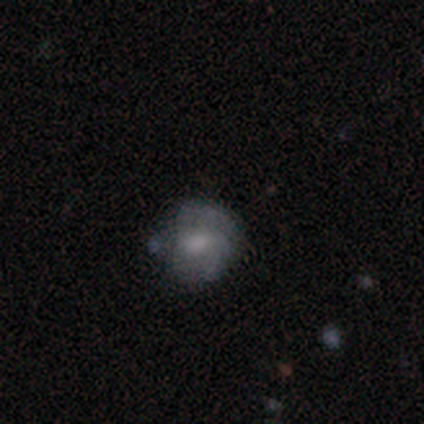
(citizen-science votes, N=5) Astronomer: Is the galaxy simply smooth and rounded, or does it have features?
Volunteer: featured or disk — 80%.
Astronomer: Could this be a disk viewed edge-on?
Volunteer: no — 100%.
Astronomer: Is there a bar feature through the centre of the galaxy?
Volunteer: no — 75%.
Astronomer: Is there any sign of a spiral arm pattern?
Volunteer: yes — 50%, tied with no at 50%.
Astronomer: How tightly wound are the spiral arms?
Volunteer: tight — 50%, tied with medium at 50%.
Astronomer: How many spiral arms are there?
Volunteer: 2 — 50%, tied with can't tell at 50%.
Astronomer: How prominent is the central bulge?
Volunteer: moderate — 50%.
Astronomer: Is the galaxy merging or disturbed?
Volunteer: none — 40%, tied with minor disturbance at 40%.